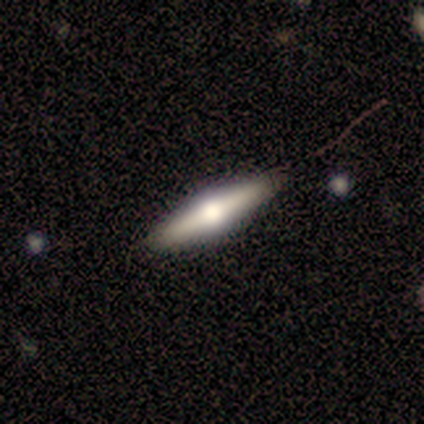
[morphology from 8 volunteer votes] featured or disk 62%, smooth 38%, star or artifact 0%. Down the decision tree: edge-on disk — yes (100%); edge-on bulge — rounded (100%); merging — none (88%).